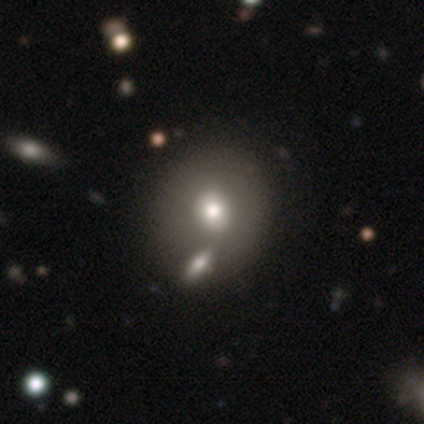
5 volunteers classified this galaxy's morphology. Smooth or featured? smooth (60%)
How rounded? round (100%)
Merging? none (67%)